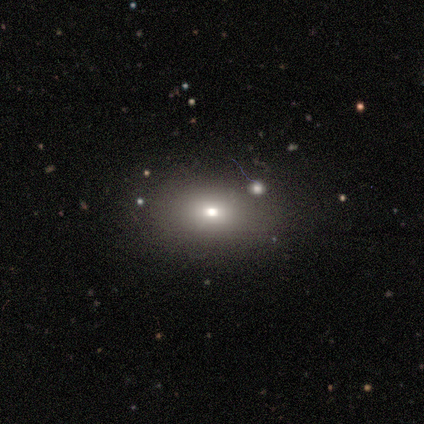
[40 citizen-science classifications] smooth-or-featured: smooth: 78% | featured or disk: 15% | star or artifact: 8%
  how-rounded: in between: 68% | round: 23% | cigar-shaped: 10%
  merging: none: 81% | minor disturbance: 14% | major disturbance: 3% | merger: 3%